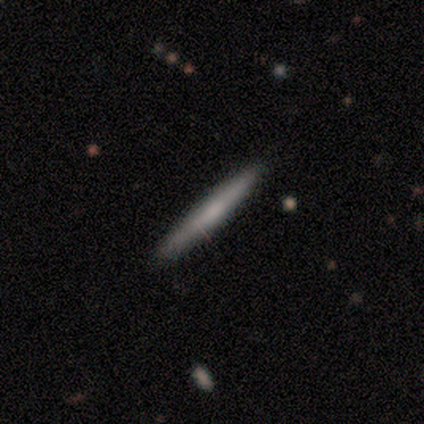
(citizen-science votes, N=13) smooth_or_featured: featured or disk (p=0.54) [alt: smooth p=0.38]
disk_edge_on: yes (p=1.00)
edge_on_bulge: none (p=0.71) [alt: boxy p=0.14]
merging: none (p=0.92) [alt: major disturbance p=0.08]